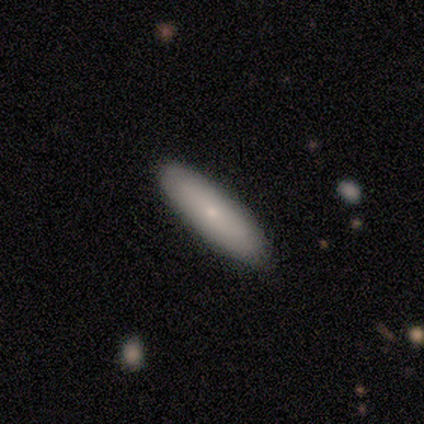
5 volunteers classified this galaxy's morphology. Volunteers were most divided on "how rounded" (2-way tie): in between: 50%, cigar-shaped: 50%, round: 0%. More confident: merging — none (100%); smooth or featured — smooth (80%).